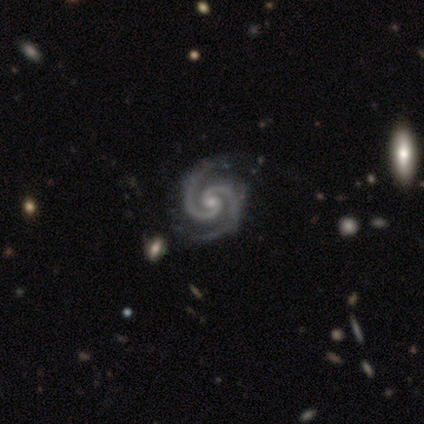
Volunteers were most divided on "bulge size" (2-way tie): moderate: 50%, small: 50%, dominant: 0%, large: 0%, none: 0%. More confident: edge-on disk — no (100%); spiral arms — yes (100%); spiral arm count — 2 (100%); merging — none (100%); smooth or featured — featured or disk (80%); bar — no (75%); spiral winding — medium (50%).